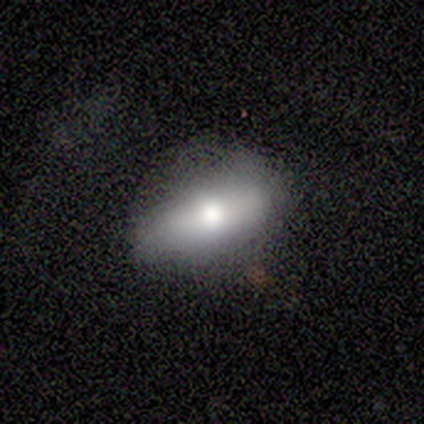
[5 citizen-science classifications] smooth 60%, featured or disk 40%, star or artifact 0%. Down the decision tree: how rounded — in between (100%); merging — none (100%).